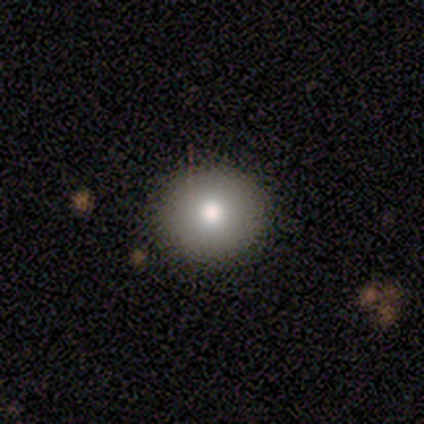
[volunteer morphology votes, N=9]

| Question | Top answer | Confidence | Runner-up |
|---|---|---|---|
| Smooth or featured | smooth | 67% | star or artifact (22%) |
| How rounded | round | 100% | — |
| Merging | none | 71% | minor disturbance (29%) |